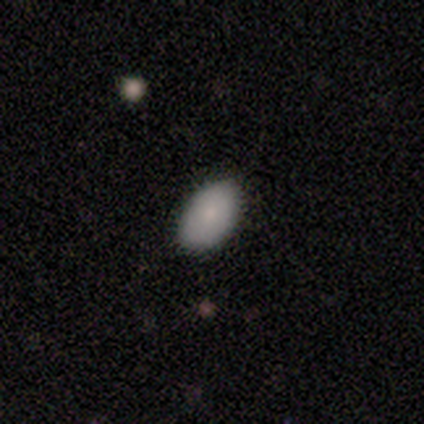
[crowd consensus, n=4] Smooth or featured? smooth (100%)
How rounded? in between (100%)
Merging? none (75%)